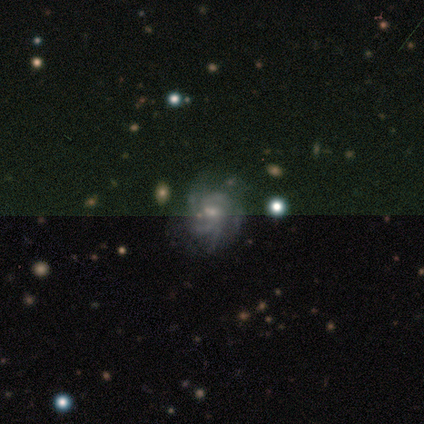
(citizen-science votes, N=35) Morphology: type=featured or disk (77%); edge-on=no (100%); bar=no (63%); spiral arms=yes (89%); winding=tight (46%); arm count=3 (38%, tied with can't tell); bulge=small (56%); merging=none (73%).